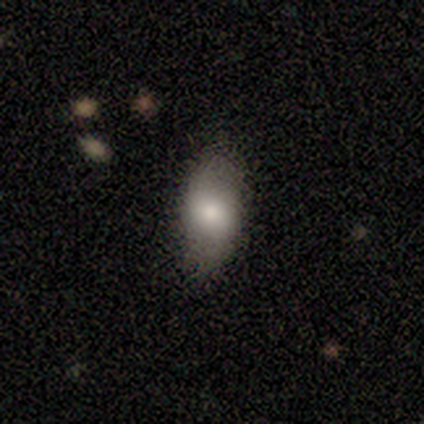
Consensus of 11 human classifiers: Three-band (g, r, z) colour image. It shows a featured or disk galaxy (55%) with no bar (100%), no spiral arms (67%) and a small central bulge (67%). Merging: none (100%).